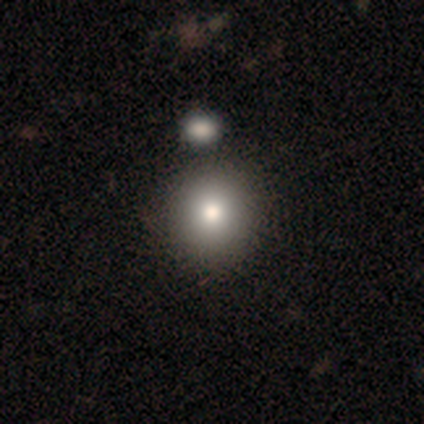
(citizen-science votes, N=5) This appears to be a smooth galaxy with no disk features (80%) that is round (75%). Merging: none (100%).